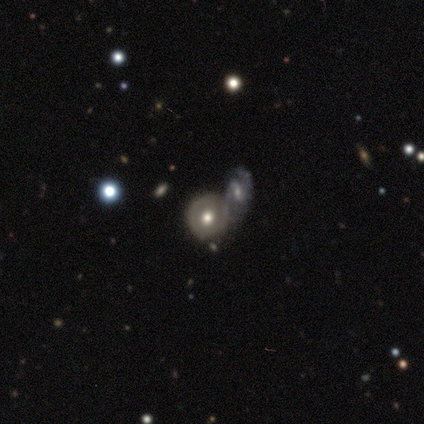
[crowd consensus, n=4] This appears to be a smooth galaxy with no disk features (50%, tied with featured or disk) that is round (100%). Merging: none (75%).